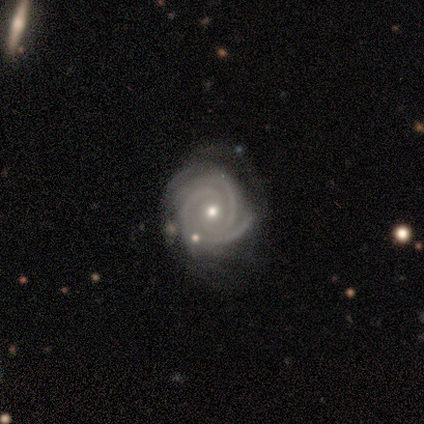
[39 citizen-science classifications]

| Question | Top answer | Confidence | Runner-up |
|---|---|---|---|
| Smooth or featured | featured or disk | 92% | smooth (5%) |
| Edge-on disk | no | 97% | yes (3%) |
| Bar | no | 77% | weak (17%) |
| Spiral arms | yes | 100% | — |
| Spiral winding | tight | 80% | medium (20%) |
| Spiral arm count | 2 | 49% | 3 (34%) |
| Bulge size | moderate | 63% | small (34%) |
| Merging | none | 68% | minor disturbance (24%) |